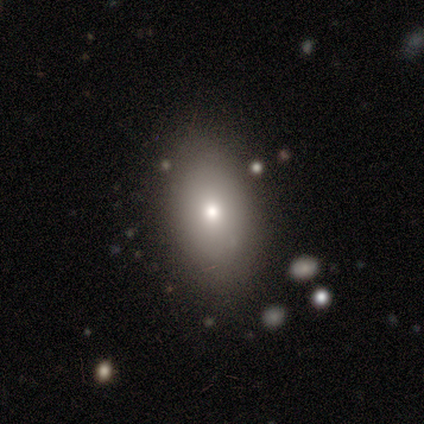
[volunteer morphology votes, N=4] A smooth galaxy with no disk features (50%, tied with featured or disk) that is round (50%, tied with in between). Merging: none (75%).